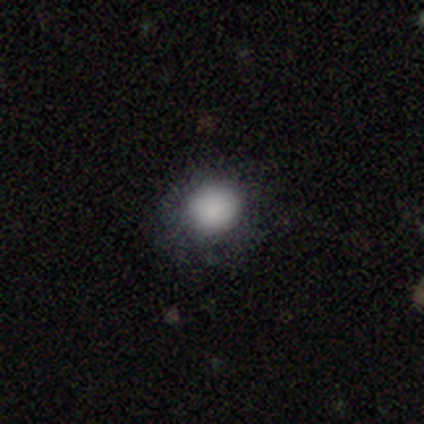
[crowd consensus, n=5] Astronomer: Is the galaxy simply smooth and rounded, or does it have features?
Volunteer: smooth — 80%.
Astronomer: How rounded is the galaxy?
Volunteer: round — 100%.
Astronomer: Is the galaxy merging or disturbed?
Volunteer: none — 100%.